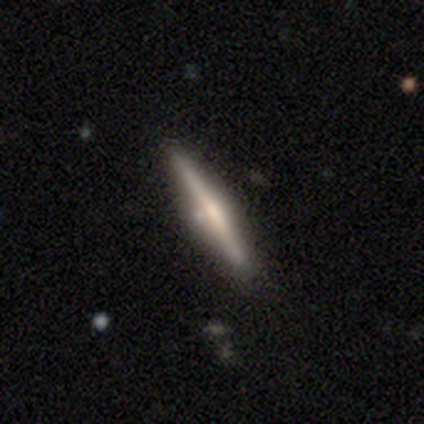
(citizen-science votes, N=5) This is clearly a featured or disk galaxy (100%). It is clearly viewed edge-on (100%). Edge-on bulge: likely boxy (60%). Merging: clearly none (80%).